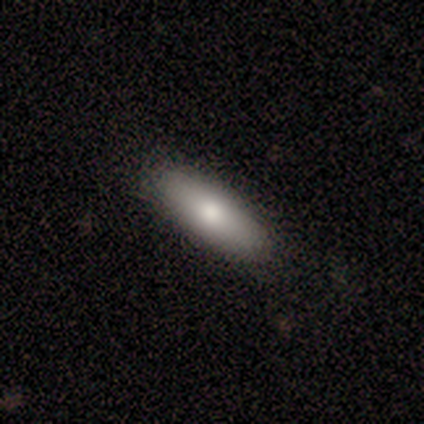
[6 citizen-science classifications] Overall: smooth (100%). How rounded: in between (83%). Merging: none (100%).